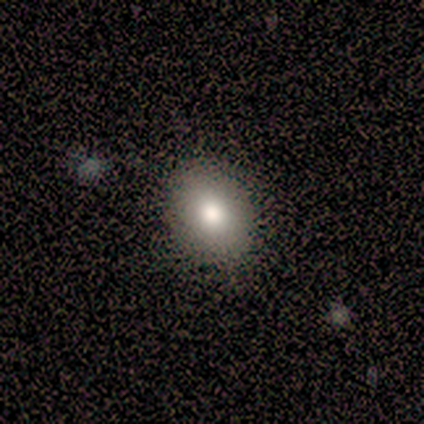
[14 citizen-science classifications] This is clearly a smooth galaxy (86%). How rounded: clearly in between (83%). Merging: clearly none (100%).